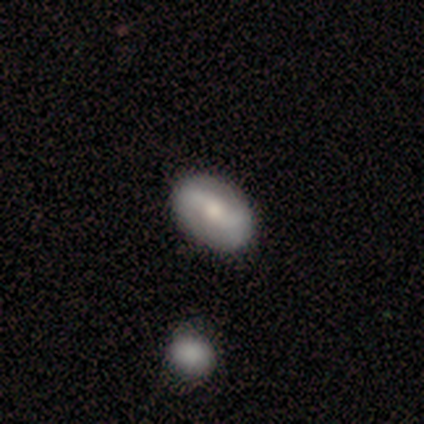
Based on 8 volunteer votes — smooth-or-featured: featured or disk: 50% | smooth: 38% | star or artifact: 12%
  disk-edge-on: no: 100% | yes: 0%
    bar: weak: 100% | strong: 0% | no: 0%
    has-spiral-arms: yes: 75% | no: 25%
      spiral-winding: tight: 33% (tied) | medium: 33% (tied) | loose: 33% (tied)
      spiral-arm-count: 2: 100% | 1: 0% | 3: 0% | 4: 0% | more than 4: 0% | can't tell: 0%
    bulge-size: small: 75% | large: 25% | dominant: 0% | moderate: 0% | none: 0%
  merging: none: 71% | minor disturbance: 14% | major disturbance: 14% | merger: 0%